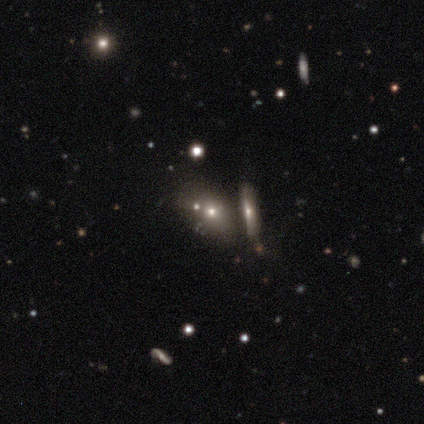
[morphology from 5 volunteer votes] Smooth or featured? smooth (60%)
How rounded? in between (67%)
Merging? none (80%)